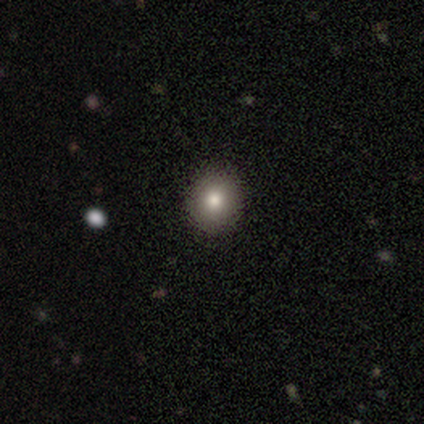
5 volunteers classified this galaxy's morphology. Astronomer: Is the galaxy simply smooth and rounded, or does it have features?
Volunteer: smooth — 100%.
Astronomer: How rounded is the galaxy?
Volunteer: round — 80%.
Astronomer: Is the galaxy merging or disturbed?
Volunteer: none — 100%.